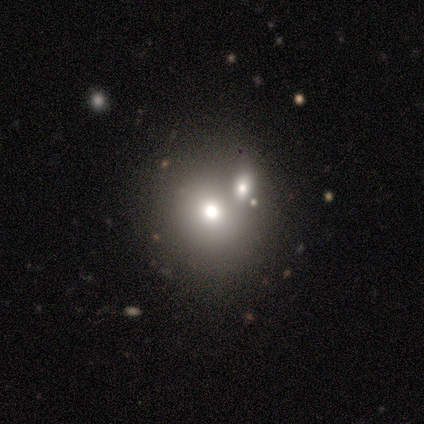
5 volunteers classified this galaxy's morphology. Smooth or featured? smooth (60%)
How rounded? round (100%)
Merging? none (50%, tied with merger)